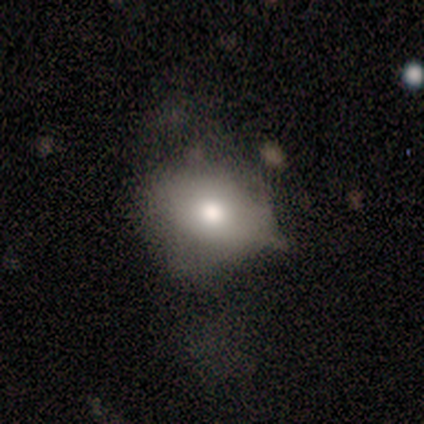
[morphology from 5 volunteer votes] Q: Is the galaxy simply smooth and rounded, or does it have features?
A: smooth — 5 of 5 (100%).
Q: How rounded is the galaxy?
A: in between — 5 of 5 (100%).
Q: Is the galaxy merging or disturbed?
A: minor disturbance — 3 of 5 (60%).